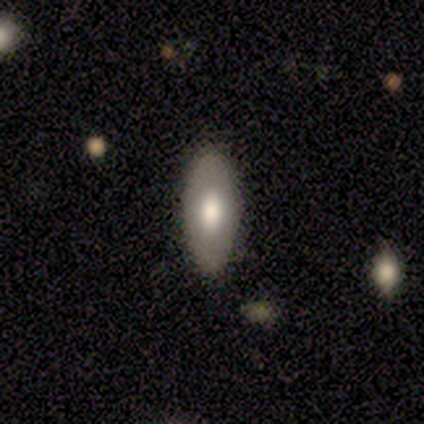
smooth 80%, featured or disk 20%, star or artifact 0%. Down the decision tree: how rounded — in between (50%, tied with cigar-shaped); merging — none (80%).